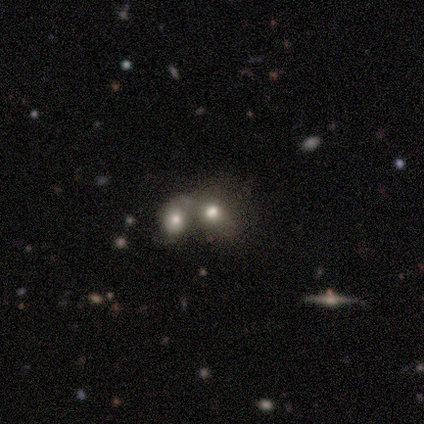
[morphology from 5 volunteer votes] smooth 80%, featured or disk 20%, star or artifact 0%. Down the decision tree: how rounded — round (75%); merging — merger (80%).